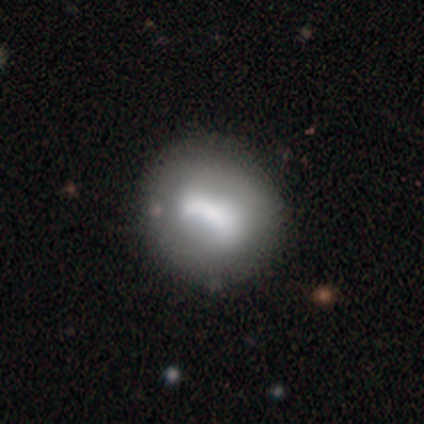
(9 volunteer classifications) Q: Smooth or featured?
A: featured or disk (56%); runner-up: smooth (33%)
Q: Edge-on disk?
A: no (100%)
Q: Bar?
A: no (60%); runner-up: strong (20%)
Q: Spiral arms?
A: no (80%); runner-up: yes (20%)
Q: Bulge size?
A: large (60%); runner-up: moderate (20%)
Q: Merging?
A: none (75%); runner-up: minor disturbance (12%)